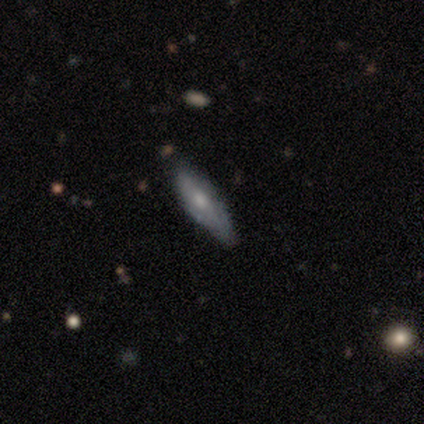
A smooth galaxy with no disk features (80%) that is cigar-shaped (75%).

Vote fractions:
- Smooth or featured? smooth: 80% / featured or disk: 20% / star or artifact: 0%
- How rounded? cigar-shaped: 75% / in between: 25% / round: 0%
- Merging? none: 60% / minor disturbance: 40% / major disturbance: 0% / merger: 0%